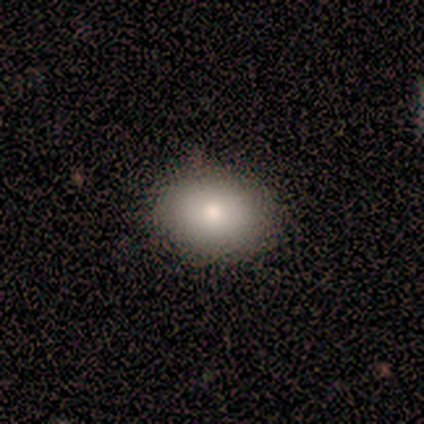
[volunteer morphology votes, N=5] Smooth or featured: smooth — 80% (star or artifact — 20%)
How rounded: in between — 75% (round — 25%)
Merging: none — 75% (minor disturbance — 25%)